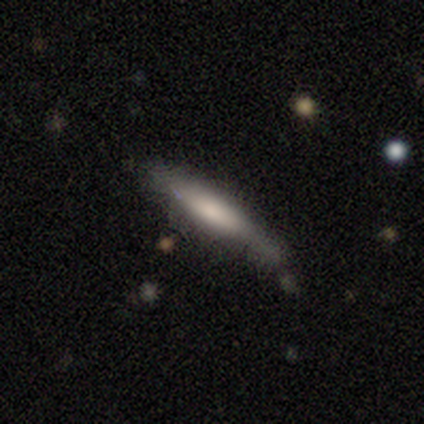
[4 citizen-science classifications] A featured or disk galaxy (50%) viewed edge-on (100%) with a rounded central bulge (100%). Merging: minor disturbance (67%).